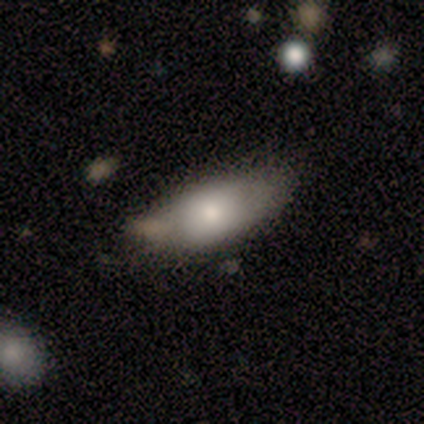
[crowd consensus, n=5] A smooth galaxy with no disk features (80%) that is in between round and cigar-shaped (100%).

Vote fractions:
- Smooth or featured? smooth: 80% / featured or disk: 20% / star or artifact: 0%
- How rounded? in between: 100% / round: 0% / cigar-shaped: 0%
- Merging? none: 80% / merger: 20% / minor disturbance: 0% / major disturbance: 0%